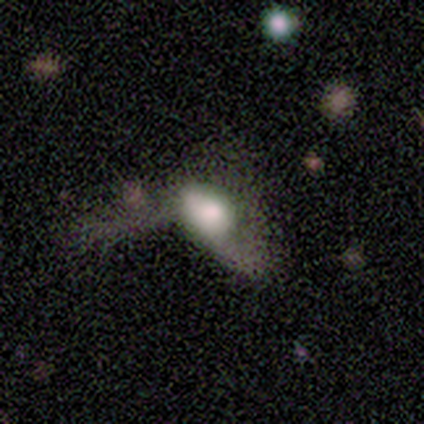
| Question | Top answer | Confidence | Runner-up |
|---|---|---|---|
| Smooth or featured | smooth | 67% | featured or disk (33%) |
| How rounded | in between | 100% | — |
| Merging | major disturbance | 67% | minor disturbance (33%) |